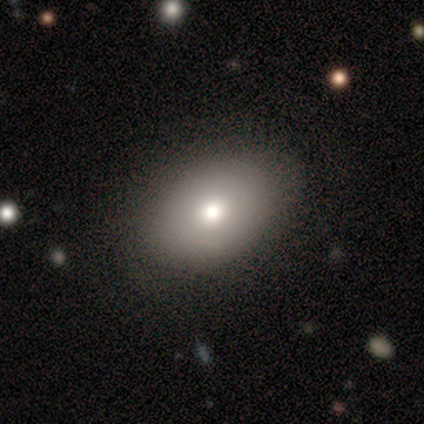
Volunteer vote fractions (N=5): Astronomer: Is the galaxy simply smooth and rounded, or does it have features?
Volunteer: smooth — 80%.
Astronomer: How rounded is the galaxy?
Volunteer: in between — 100%.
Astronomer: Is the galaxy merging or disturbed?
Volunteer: none — 50%.